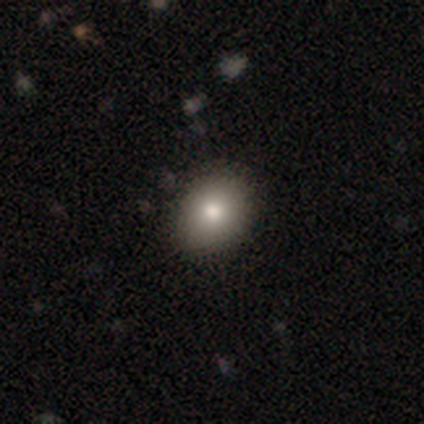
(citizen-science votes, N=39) Smooth or featured: smooth — 69% (star or artifact — 18%)
How rounded: in between — 56% (round — 44%)
Merging: none — 88% (minor disturbance — 9%)